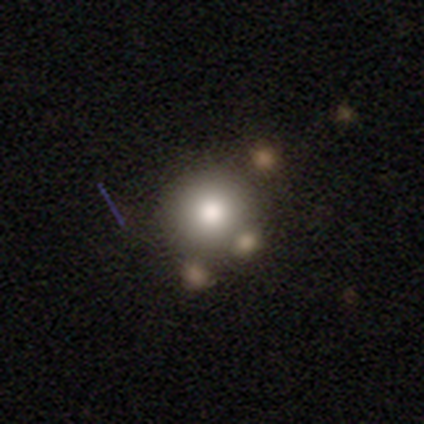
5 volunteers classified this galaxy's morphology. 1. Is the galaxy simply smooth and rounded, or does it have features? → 80% smooth, 20% star or artifact, 0% featured or disk.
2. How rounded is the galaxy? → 100% round, 0% in between, 0% cigar-shaped.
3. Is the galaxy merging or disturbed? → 100% none, 0% minor disturbance, 0% major disturbance, 0% merger.